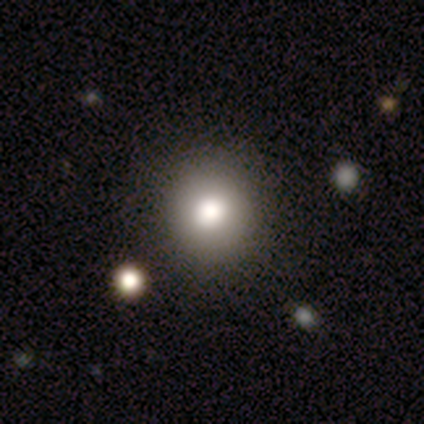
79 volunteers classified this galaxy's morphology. Q: Smooth or featured?
A: smooth (82%); runner-up: featured or disk (10%)
Q: How rounded?
A: round (89%); runner-up: in between (11%)
Q: Merging?
A: none (59%); runner-up: minor disturbance (1%)